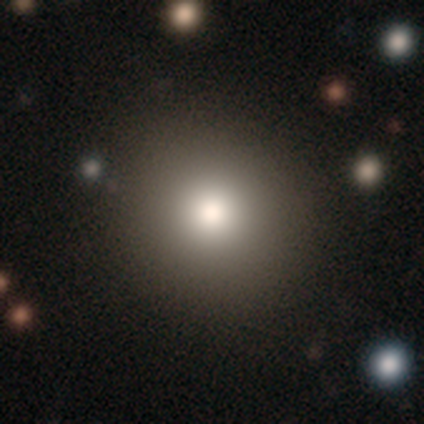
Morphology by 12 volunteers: This is clearly a smooth galaxy (100%). How rounded: clearly round (83%). Merging: likely none (75%).